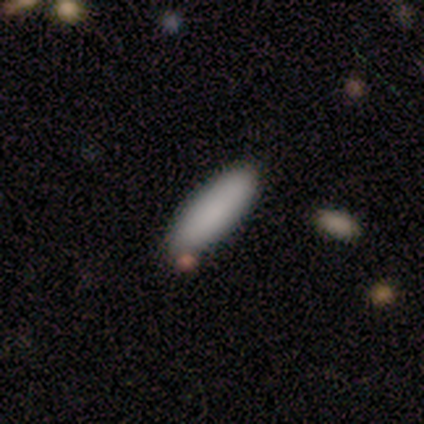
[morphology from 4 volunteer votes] smooth_or_featured: smooth (p=0.75) [alt: star or artifact p=0.25]
how_rounded: in between (p=1.00)
merging: none (p=1.00)